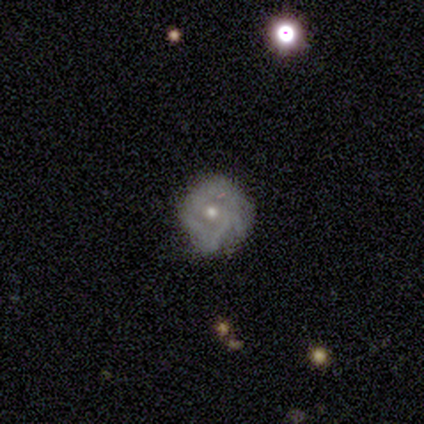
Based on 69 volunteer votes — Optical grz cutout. It shows a featured or disk galaxy (75%) with no bar (92%), tight (68%) spiral arms (61%) and a moderate central bulge (57%). Merging: none (61%).